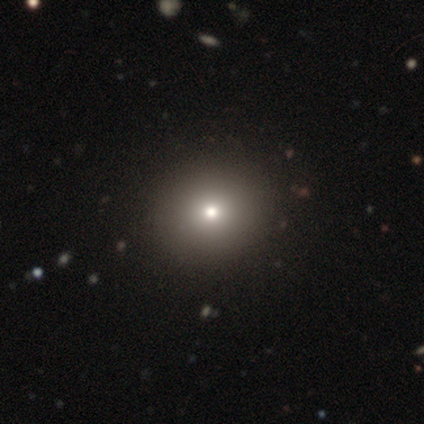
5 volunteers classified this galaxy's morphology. Volunteers were most divided on "smooth or featured": smooth: 80%, star or artifact: 20%, featured or disk: 0%. More confident: how rounded — round (100%); merging — none (100%).